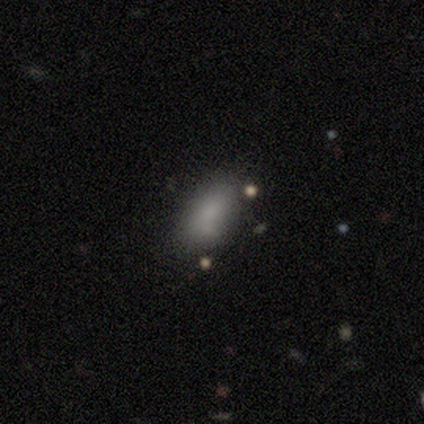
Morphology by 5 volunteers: Smooth or featured? smooth (100%)
How rounded? in between (80%)
Merging? none (80%)